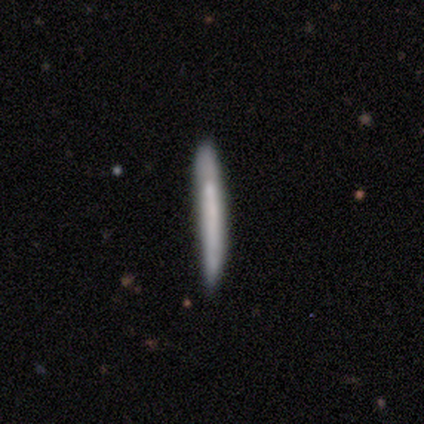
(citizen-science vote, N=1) Smooth or featured? featured or disk (100%)
Edge-on disk? yes (100%)
Edge-on bulge? none (100%)
Merging? minor disturbance (100%)